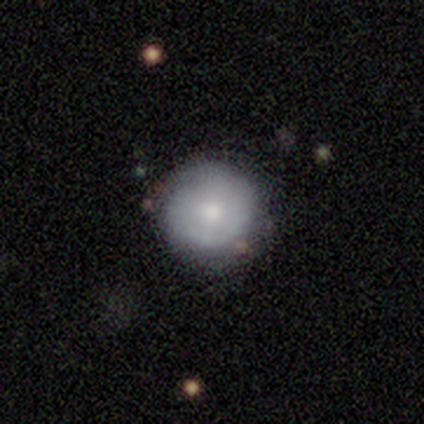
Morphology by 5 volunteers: smooth_or_featured: featured or disk (p=0.60) [alt: smooth p=0.40]
disk_edge_on: no (p=1.00)
bar: no (p=1.00)
has_spiral_arms: yes (p=0.67) [alt: no p=0.33]
spiral_winding: medium (p=0.50) [tied with: loose p=0.50]
spiral_arm_count: can't tell (p=1.00)
bulge_size: moderate (p=0.67) [alt: small p=0.33]
merging: none (p=0.80) [alt: minor disturbance p=0.20]